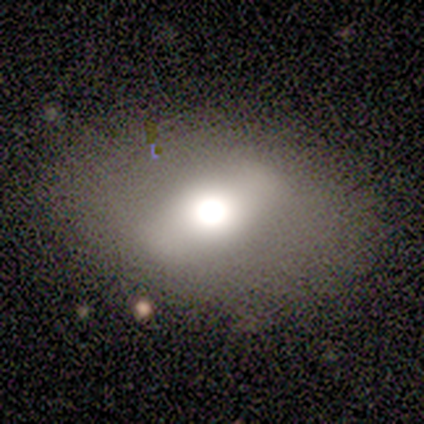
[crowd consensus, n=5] A smooth galaxy with no disk features (40%, tied with featured or disk) that is in between round and cigar-shaped (100%).

Vote fractions:
- Smooth or featured? smooth: 40% (tied) / featured or disk: 40% (tied) / star or artifact: 20%
- How rounded? in between: 100% / round: 0% / cigar-shaped: 0%
- Merging? none: 100% / minor disturbance: 0% / major disturbance: 0% / merger: 0%